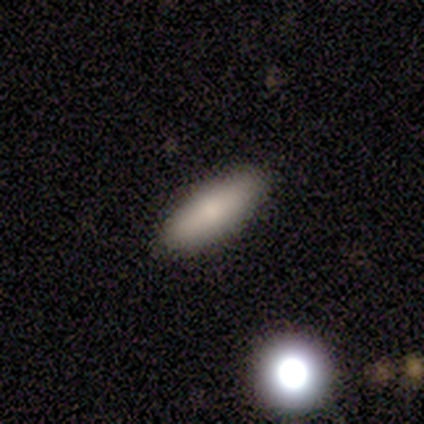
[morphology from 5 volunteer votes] smooth 100%, featured or disk 0%, star or artifact 0%. Down the decision tree: how rounded — in between (60%); merging — none (80%).